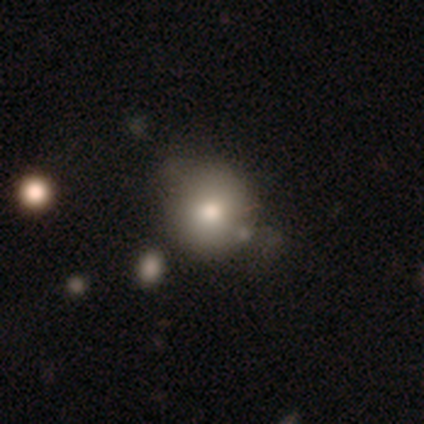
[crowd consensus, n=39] smooth_or_featured: smooth (p=0.87) [alt: featured or disk p=0.10]
how_rounded: round (p=1.00)
merging: none (p=0.45) [alt: minor disturbance p=0.21]